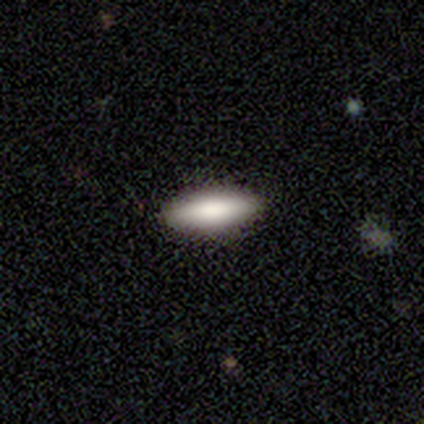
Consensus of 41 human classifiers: smooth-or-featured: smooth: 76% | featured or disk: 17% | star or artifact: 7%
  how-rounded: in between: 58% | cigar-shaped: 42% | round: 0%
  merging: none: 92% | minor disturbance: 8% | major disturbance: 0% | merger: 0%